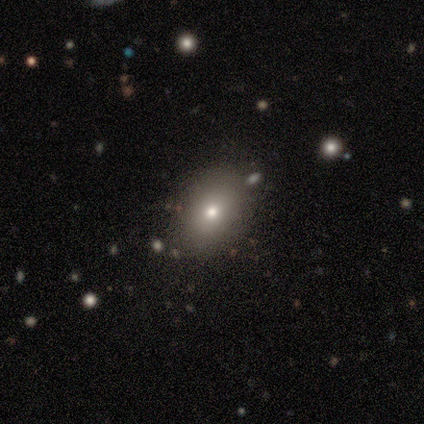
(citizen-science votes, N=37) Smooth or featured?
  - smooth: 78% *
  - star or artifact: 16%
  - featured or disk: 5%
How rounded?
  - in between: 72% *
  - round: 28%
  - cigar-shaped: 0%
Merging?
  - none: 71% *
  - minor disturbance: 16%
  - major disturbance: 6%
  - merger: 6%